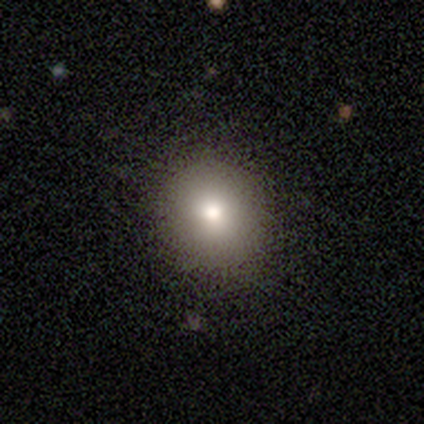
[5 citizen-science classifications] A smooth galaxy with no disk features (100%) that is round (80%).

Vote fractions:
- Smooth or featured? smooth: 100% / featured or disk: 0% / star or artifact: 0%
- How rounded? round: 80% / in between: 20% / cigar-shaped: 0%
- Merging? none: 80% / minor disturbance: 20% / major disturbance: 0% / merger: 0%